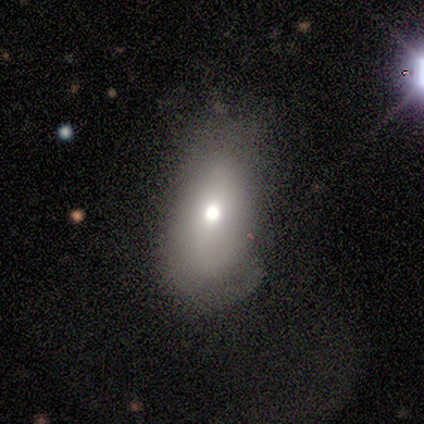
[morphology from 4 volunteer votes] This appears to be a smooth galaxy with no disk features (50%, tied with featured or disk) that is in between round and cigar-shaped (100%). Merging: minor disturbance (50%).